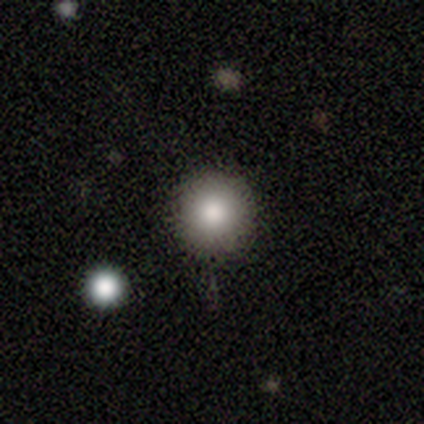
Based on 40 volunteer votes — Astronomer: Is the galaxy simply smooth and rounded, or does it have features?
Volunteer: smooth — 82%.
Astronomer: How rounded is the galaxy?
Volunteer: round — 88%.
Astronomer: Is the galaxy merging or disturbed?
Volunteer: none — 81%.